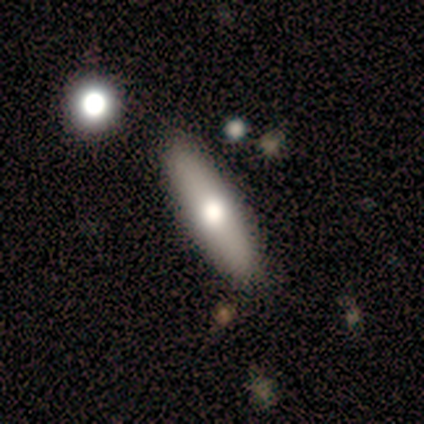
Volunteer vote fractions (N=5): Smooth or featured? 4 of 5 (80%) said smooth. How rounded? 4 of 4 (100%) said cigar-shaped. Merging? 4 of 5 (80%) said none.